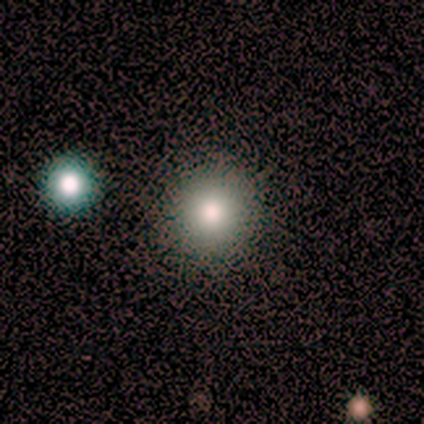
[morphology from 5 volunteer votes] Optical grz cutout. It shows a smooth galaxy with no disk features (40%, tied with star or artifact) that is round (100%). Merging: none (100%).